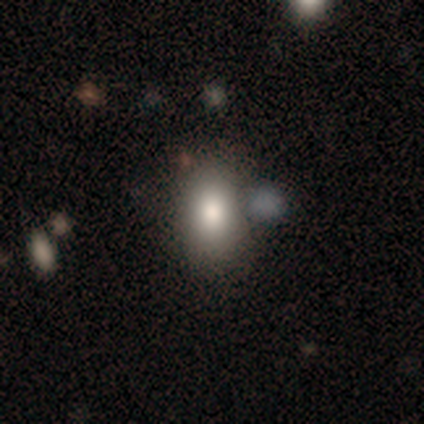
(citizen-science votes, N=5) A smooth galaxy with no disk features (80%) that is in between round and cigar-shaped (75%). Merging: none (100%).